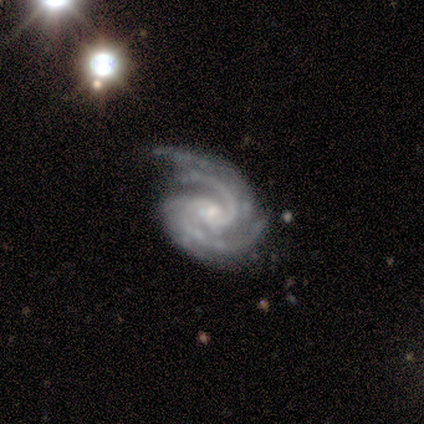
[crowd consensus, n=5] This is clearly a featured or disk galaxy (100%). It is clearly not viewed edge-on (100%). Bar: likely no (60%). Spiral arm pattern: clearly yes (100%). Spiral arm count: clearly 2 (80%). Spiral winding: clearly tight (80%). Central bulge: clearly small (100%). Merging: marginally none (40%, tied with major disturbance).